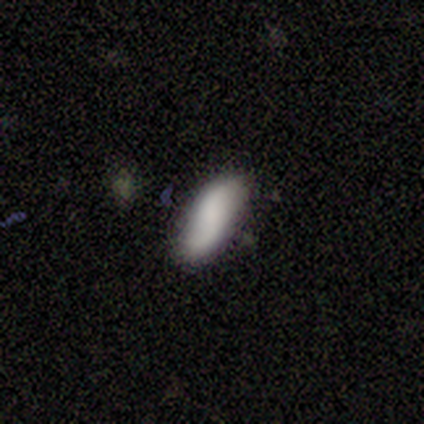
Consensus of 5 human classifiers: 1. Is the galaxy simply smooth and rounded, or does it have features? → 80% smooth, 20% featured or disk, 0% star or artifact.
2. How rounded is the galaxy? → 75% in between, 25% cigar-shaped, 0% round.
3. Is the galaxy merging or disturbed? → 80% none, 20% merger, 0% minor disturbance, 0% major disturbance.